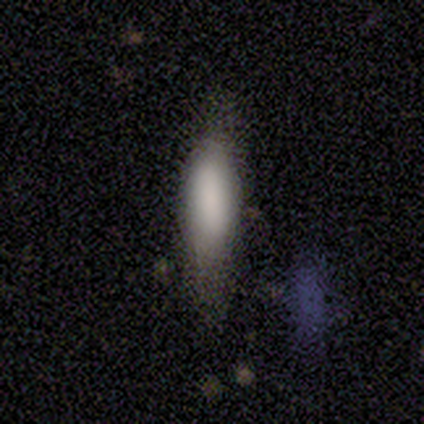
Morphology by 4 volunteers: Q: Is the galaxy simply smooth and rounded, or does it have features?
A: smooth — 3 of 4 (75%).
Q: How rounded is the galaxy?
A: cigar-shaped — 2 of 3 (67%).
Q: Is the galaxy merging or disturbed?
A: minor disturbance — 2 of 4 (50%).